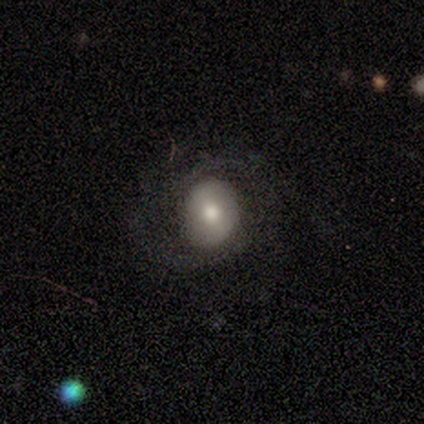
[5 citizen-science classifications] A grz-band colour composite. It shows a smooth galaxy with no disk features (60%) that is in between round and cigar-shaped (67%). Merging: minor disturbance (60%).